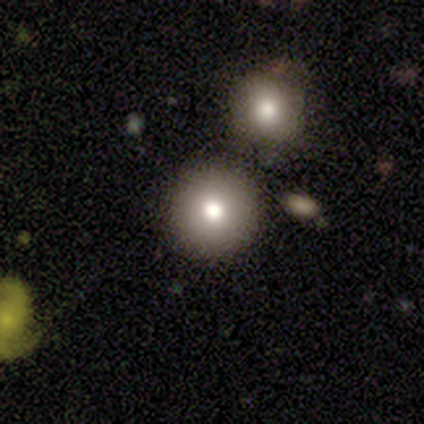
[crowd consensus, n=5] Consensus on every question: smooth or featured — smooth (100%); how rounded — round (100%); merging — none (100%).